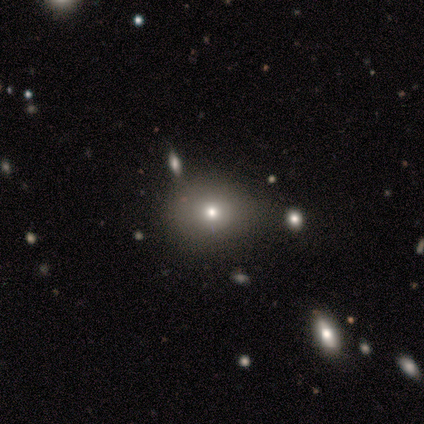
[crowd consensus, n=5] Overall: featured or disk (60%; smooth 40%). Edge-on disk: no (100%). Bar: no (100%). Spiral arms: no (100%). Bulge size: small (67%; moderate 33%). Merging: none (80%).